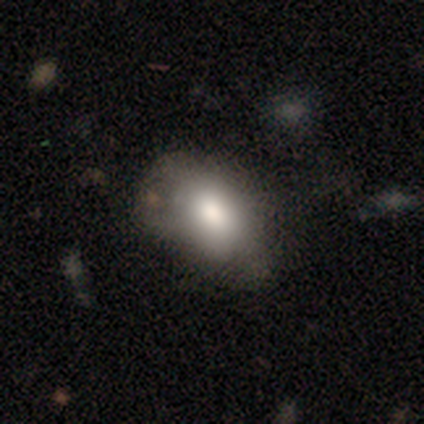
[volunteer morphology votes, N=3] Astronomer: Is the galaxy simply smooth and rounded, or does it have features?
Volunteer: smooth — 100%.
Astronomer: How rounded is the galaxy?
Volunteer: in between — 100%.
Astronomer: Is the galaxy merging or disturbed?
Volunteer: minor disturbance — 67%.